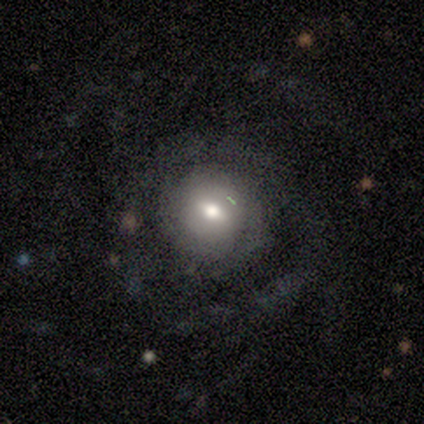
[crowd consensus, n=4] Q: Smooth or featured?
A: featured or disk (75%); runner-up: smooth (25%)
Q: Edge-on disk?
A: yes (67%); runner-up: no (33%)
Q: Edge-on bulge?
A: rounded (100%)
Q: Merging?
A: none (100%)